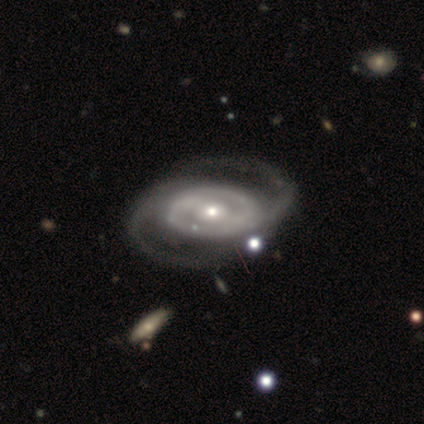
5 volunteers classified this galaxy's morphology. type=featured or disk (100%); edge-on=no (100%); bar=strong (40%, tied with no); spiral arms=yes (80%); winding=medium (50%); arm count=2 (100%); bulge=moderate (100%); merging=none (80%).